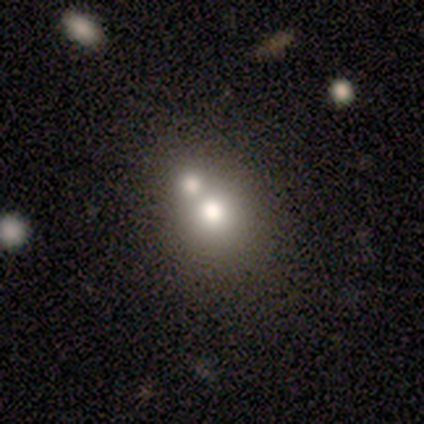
Smooth or featured: smooth — 59% (featured or disk — 31%)
How rounded: round — 74% (in between — 26%)
Merging: merger — 63% (none — 26%)